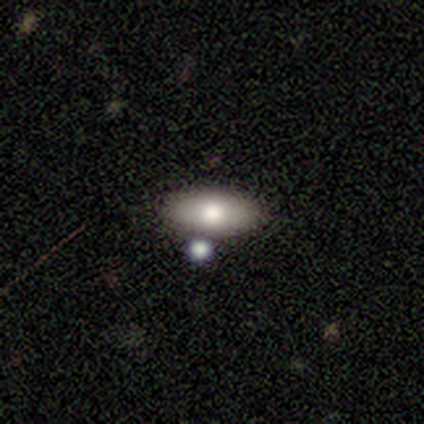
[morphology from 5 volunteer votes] Smooth or featured? smooth (80%)
How rounded? in between (100%)
Merging? none (60%)